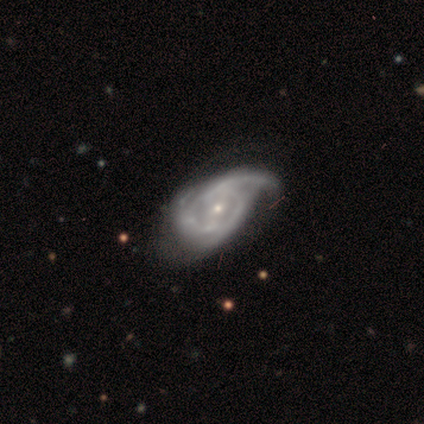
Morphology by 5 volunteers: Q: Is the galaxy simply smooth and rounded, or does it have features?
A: featured or disk — 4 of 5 (80%).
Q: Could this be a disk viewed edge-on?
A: no — 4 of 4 (100%).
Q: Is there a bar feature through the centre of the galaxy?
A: weak — 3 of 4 (75%).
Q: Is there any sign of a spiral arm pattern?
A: yes — 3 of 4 (75%).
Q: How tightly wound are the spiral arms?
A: tight — 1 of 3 (33%, tied with medium and loose).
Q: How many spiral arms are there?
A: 1 — 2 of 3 (67%).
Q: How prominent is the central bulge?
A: small — 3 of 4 (75%).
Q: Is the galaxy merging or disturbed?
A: major disturbance — 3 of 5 (60%).